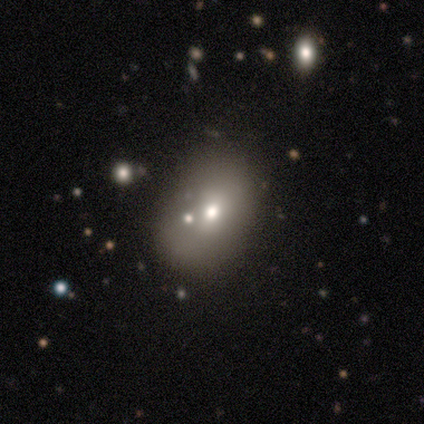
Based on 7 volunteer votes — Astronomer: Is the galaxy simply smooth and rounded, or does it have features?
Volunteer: smooth — 100%.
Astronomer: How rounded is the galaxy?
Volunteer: in between — 86%.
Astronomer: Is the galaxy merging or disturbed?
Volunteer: none — 43% (runner-up: minor disturbance, 29%).